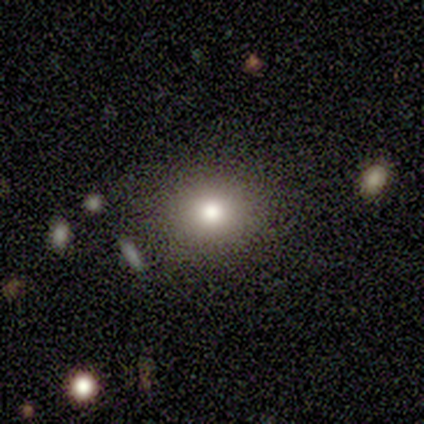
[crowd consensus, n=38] This is clearly a smooth galaxy (82%). How rounded: likely round (74%). Merging: clearly none (88%).